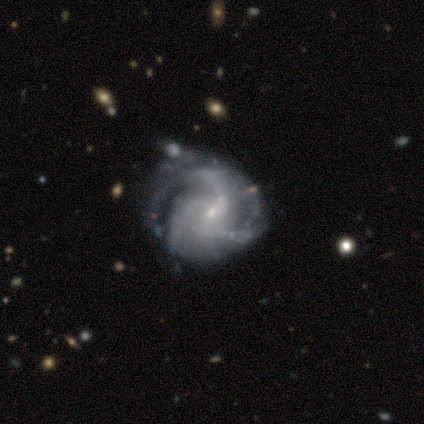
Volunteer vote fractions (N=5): smooth-or-featured: featured or disk: 80% | smooth: 20% | star or artifact: 0%
  disk-edge-on: no: 100% | yes: 0%
    bar: weak: 50% (tied) | no: 50% (tied) | strong: 0%
    has-spiral-arms: yes: 100% | no: 0%
      spiral-winding: medium: 50% | tight: 25% | loose: 25%
      spiral-arm-count: 3: 100% | 1: 0% | 2: 0% | 4: 0% | more than 4: 0% | can't tell: 0%
    bulge-size: small: 100% | dominant: 0% | large: 0% | moderate: 0% | none: 0%
  merging: none: 60% | minor disturbance: 20% | major disturbance: 20% | merger: 0%